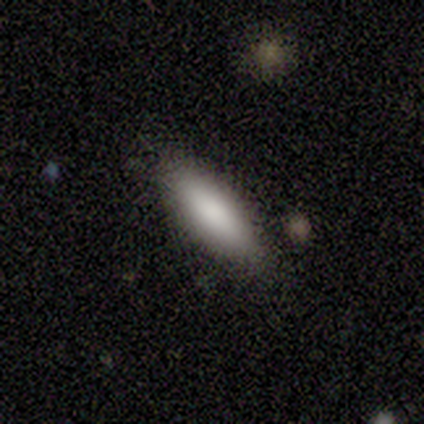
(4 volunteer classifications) Smooth or featured: smooth — 100%
How rounded: in between — 75% (cigar-shaped — 25%)
Merging: none — 100%